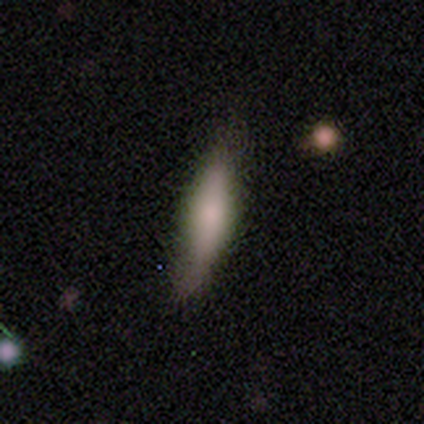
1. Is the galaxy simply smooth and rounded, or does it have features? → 67% smooth, 33% featured or disk, 0% star or artifact.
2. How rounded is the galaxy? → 50% in between (tied), 50% cigar-shaped (tied), 0% round.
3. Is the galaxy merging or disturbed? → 33% none (tied), 33% minor disturbance (tied), 33% major disturbance (tied), 0% merger.